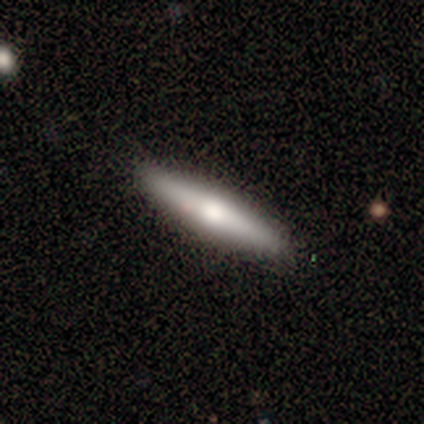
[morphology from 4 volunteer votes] Smooth or featured: smooth — 75% (featured or disk — 25%)
How rounded: cigar-shaped — 100%
Merging: none — 100%